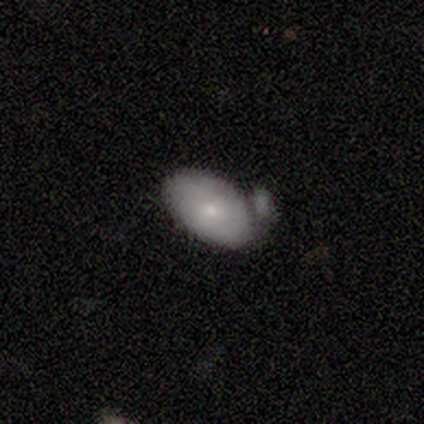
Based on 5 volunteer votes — smooth 100%, featured or disk 0%, star or artifact 0%. Down the decision tree: how rounded — in between (100%); merging — minor disturbance (60%).